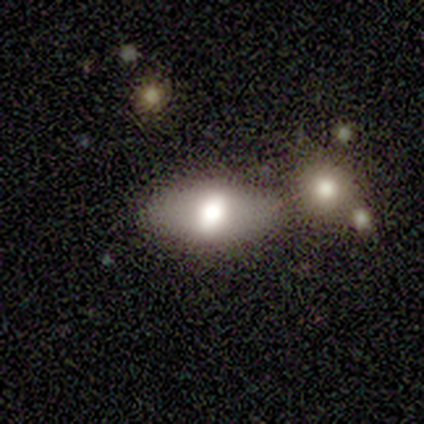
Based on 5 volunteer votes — smooth 100%, featured or disk 0%, star or artifact 0%. Down the decision tree: how rounded — in between (80%); merging — minor disturbance (60%).